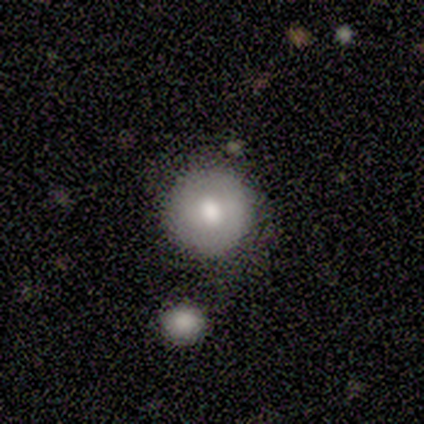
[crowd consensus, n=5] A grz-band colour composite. It shows a smooth galaxy with no disk features (60%) that is round (100%). Merging: none (100%).